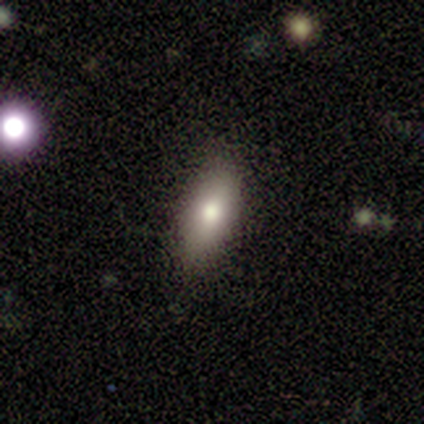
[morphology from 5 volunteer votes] This is clearly a smooth galaxy (100%). How rounded: clearly in between (100%). Merging: clearly none (100%).